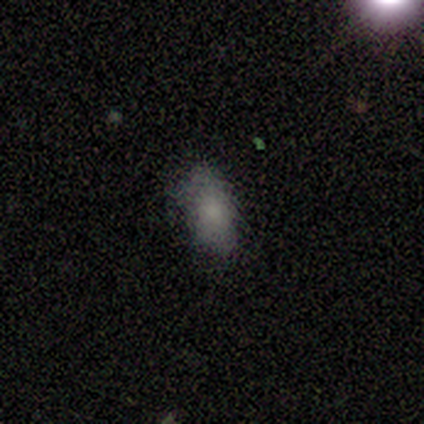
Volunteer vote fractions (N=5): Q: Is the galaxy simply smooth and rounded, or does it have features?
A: smooth — 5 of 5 (100%).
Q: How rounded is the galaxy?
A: in between — 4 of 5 (80%).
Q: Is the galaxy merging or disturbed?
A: none — 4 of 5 (80%).